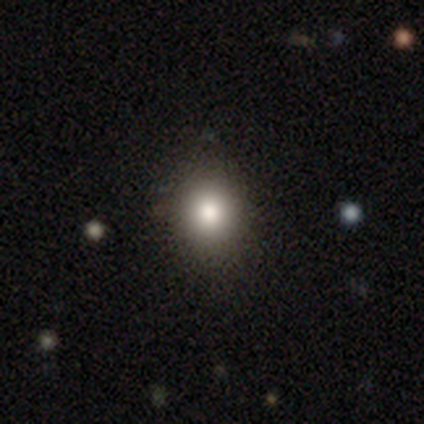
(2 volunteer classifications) This is clearly a smooth galaxy (100%). How rounded: clearly in between (100%). Merging: possibly none (50%, tied with minor disturbance).